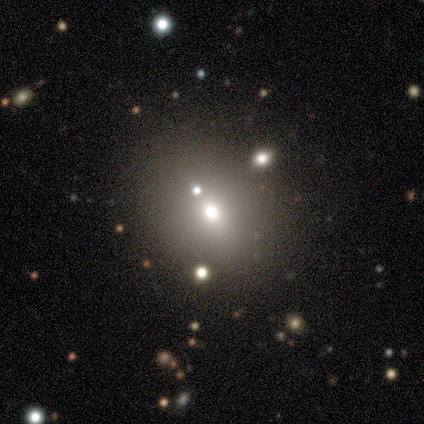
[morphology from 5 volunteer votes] Q: Smooth or featured?
A: smooth (60%); runner-up: featured or disk (20%)
Q: How rounded?
A: in between (67%); runner-up: round (33%)
Q: Merging?
A: none (50%); runner-up: major disturbance (25%)